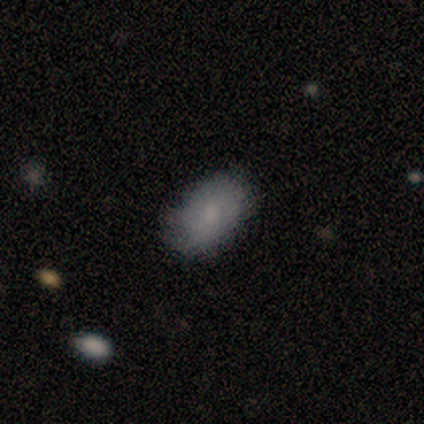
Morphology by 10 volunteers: This is clearly a smooth galaxy (90%). How rounded: clearly in between (89%). Merging: clearly none (100%).